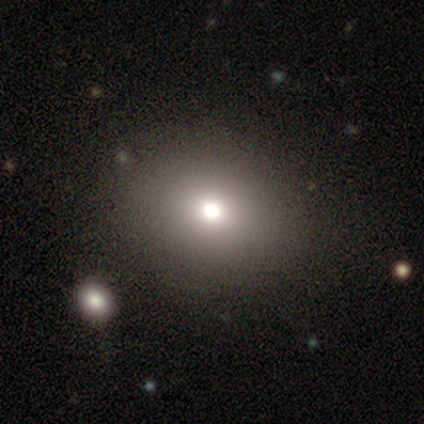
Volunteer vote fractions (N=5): Smooth or featured: smooth — 60% (featured or disk — 20%)
How rounded: in between — 67% (round — 33%)
Merging: none — 75% (minor disturbance — 25%)